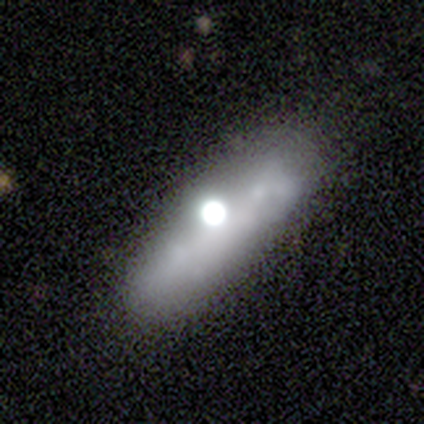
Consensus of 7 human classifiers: Morphology: type=smooth (57%); roundness=in between (50%); merging=none (50%).